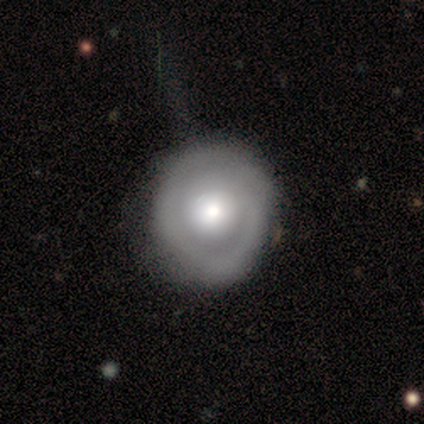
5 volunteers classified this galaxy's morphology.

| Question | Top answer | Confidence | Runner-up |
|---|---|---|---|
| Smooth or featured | featured or disk | 80% | smooth (20%) |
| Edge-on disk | no | 100% | — |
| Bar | no | 100% | — |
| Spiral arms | yes | 75% | no (25%) |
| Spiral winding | tight | 67% | medium (33%) |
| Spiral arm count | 1 | 33% | tied: 2 (33%), can't tell (33%) |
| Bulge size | moderate | 75% | large (25%) |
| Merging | none | 60% | minor disturbance (40%) |